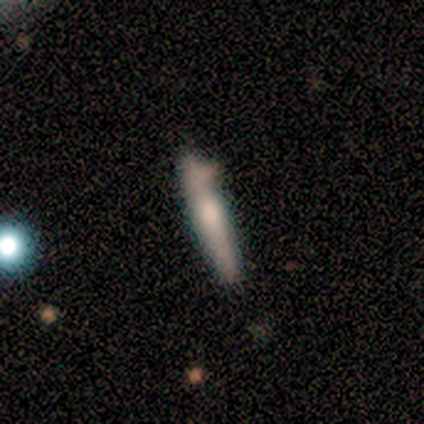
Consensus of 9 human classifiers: featured or disk 67%, smooth 33%, star or artifact 0%. Down the decision tree: edge-on disk — yes (100%); edge-on bulge — rounded (67%); merging — none (78%).